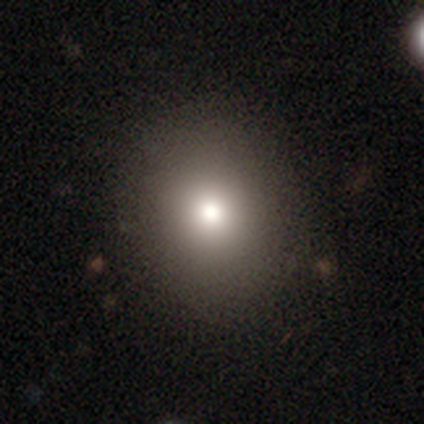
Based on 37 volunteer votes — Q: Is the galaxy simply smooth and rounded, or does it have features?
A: smooth — 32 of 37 (86%).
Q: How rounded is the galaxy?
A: round — 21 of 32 (66%).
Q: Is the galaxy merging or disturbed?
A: none — 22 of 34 (65%).